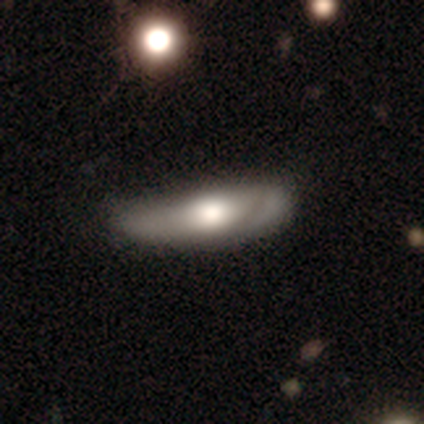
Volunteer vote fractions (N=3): A featured or disk galaxy (100%) viewed edge-on (67%) with no central bulge (100%). Merging: none (100%).